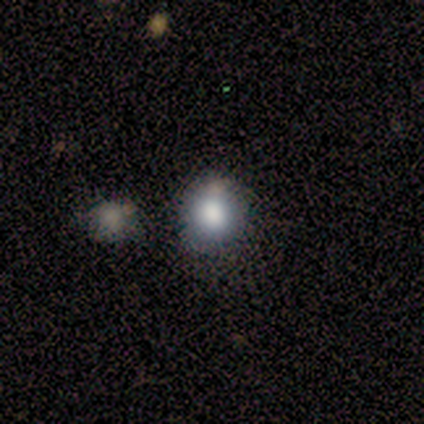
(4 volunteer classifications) Smooth or featured? 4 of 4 (100%) said smooth. How rounded? 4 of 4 (100%) said round. Merging? 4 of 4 (100%) said none.